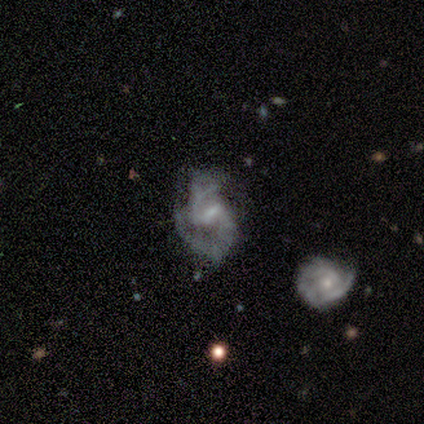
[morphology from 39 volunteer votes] This appears to be a featured or disk galaxy (77%) with a weak bar (73%), 2 (92%) medium (65%) spiral arms (87%) and a small central bulge (53%). Merging: none (59%).